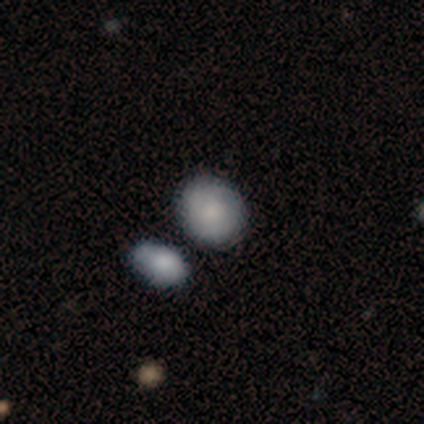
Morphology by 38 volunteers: Smooth or featured: smooth — 82% (featured or disk — 11%)
How rounded: round — 55% (in between — 45%)
Merging: none — 71% (merger — 20%)